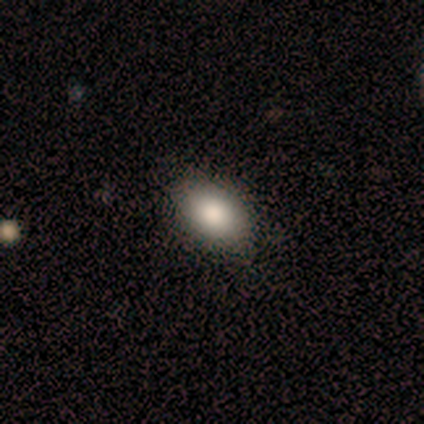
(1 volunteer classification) This appears to be a smooth galaxy with no disk features (100%) that is in between round and cigar-shaped (100%). Merging: none (100%).